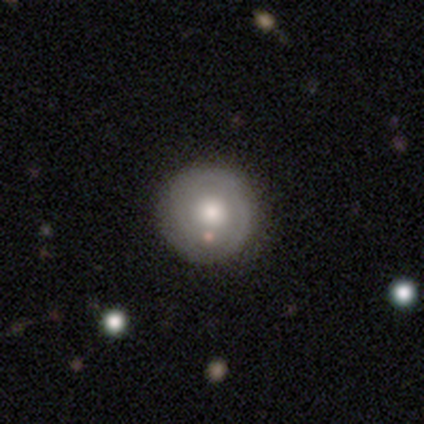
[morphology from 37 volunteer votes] Volunteers were most divided on "smooth or featured": smooth: 51%, featured or disk: 46%, star or artifact: 3%. More confident: how rounded — round (100%); merging — none (92%).